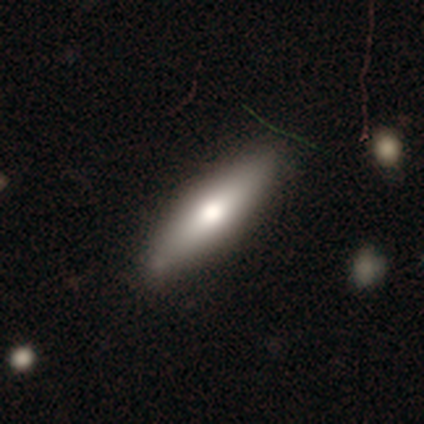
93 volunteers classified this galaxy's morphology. smooth 49%, featured or disk 41%, star or artifact 10%. Down the decision tree: how rounded — cigar-shaped (80%); merging — none (85%).